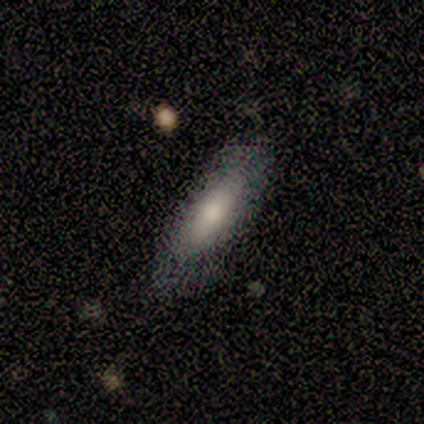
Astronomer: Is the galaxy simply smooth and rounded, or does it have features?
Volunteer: smooth — 100%.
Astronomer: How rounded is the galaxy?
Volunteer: in between — 75%.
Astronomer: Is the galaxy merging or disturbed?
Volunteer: none — 75%.